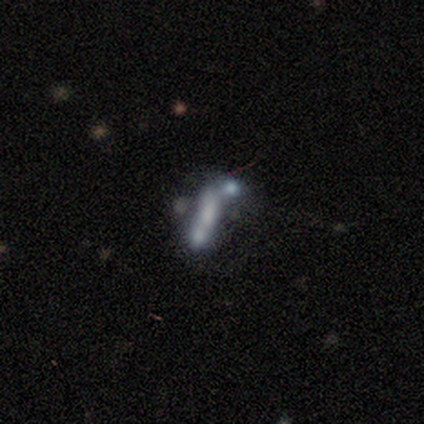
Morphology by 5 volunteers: Volunteers were most divided on "smooth or featured": featured or disk: 60%, smooth: 40%, star or artifact: 0%. More confident: edge-on disk — no (100%); spiral arms — no (100%); bar — weak (67%); bulge size — moderate (67%); merging — merger (60%).